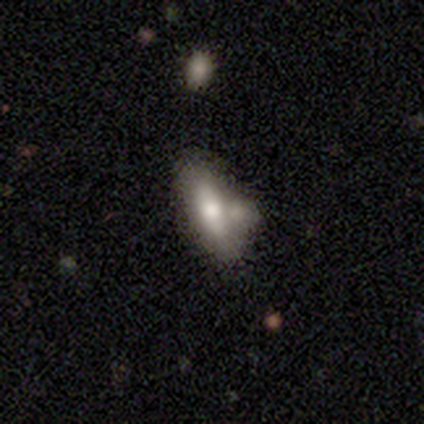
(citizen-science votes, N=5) Volunteers were most divided on "how rounded" (2-way tie): in between: 50%, cigar-shaped: 50%, round: 0%. More confident: smooth or featured — smooth (80%); merging — none (60%).